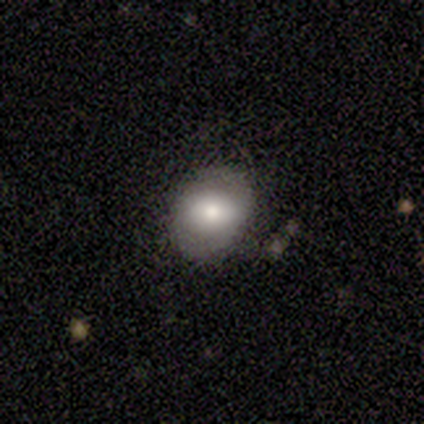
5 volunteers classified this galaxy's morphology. smooth_or_featured: smooth (p=0.40) [tied with: featured or disk p=0.40]
how_rounded: round (p=0.50) [tied with: in between p=0.50]
merging: none (p=0.75) [alt: minor disturbance p=0.25]